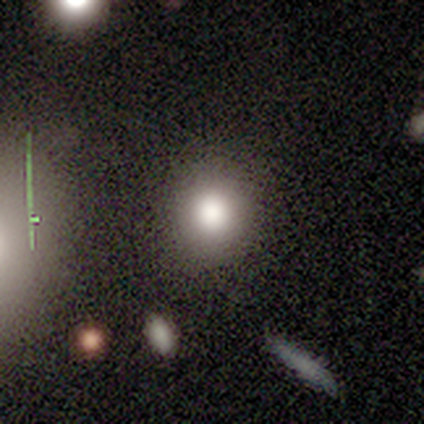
smooth_or_featured: featured or disk (p=0.40) [tied with: star or artifact p=0.40]
disk_edge_on: no (p=1.00)
bar: no (p=1.00)
has_spiral_arms: no (p=1.00)
bulge_size: large (p=1.00)
merging: none (p=0.67) [alt: minor disturbance p=0.33]